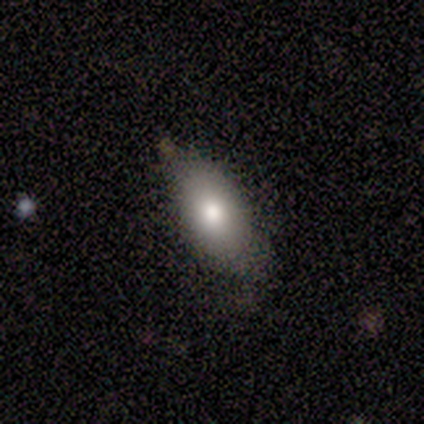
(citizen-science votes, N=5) Smooth or featured? 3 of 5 (60%) said smooth. How rounded? 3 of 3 (100%) said in between. Merging? 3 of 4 (75%) said none.